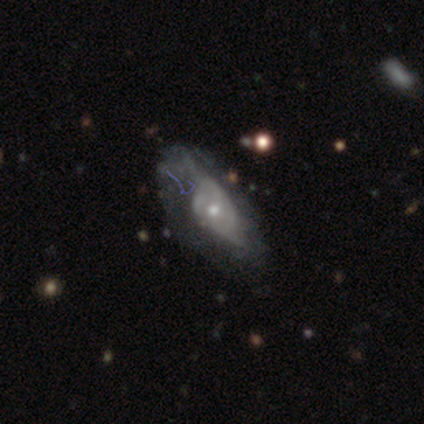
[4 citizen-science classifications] A featured or disk galaxy (75%) with no bar (100%), 2 (100%) loose (100%) spiral arms (50%, tied with no) and a large central bulge (50%, tied with small).

Vote fractions:
- Smooth or featured? featured or disk: 75% / smooth: 25% / star or artifact: 0%
- Edge-on disk? no: 67% / yes: 33%
- Bar? no: 100% / strong: 0% / weak: 0%
- Spiral arms? yes: 50% (tied) / no: 50% (tied)
- Spiral winding? loose: 100% / tight: 0% / medium: 0%
- Spiral arm count? 2: 100% / 1: 0% / 3: 0% / 4: 0% / more than 4: 0% / can't tell: 0%
- Bulge size? large: 50% (tied) / small: 50% (tied) / dominant: 0% / moderate: 0% / none: 0%
- Merging? none: 50% (tied) / major disturbance: 50% (tied) / minor disturbance: 0% / merger: 0%